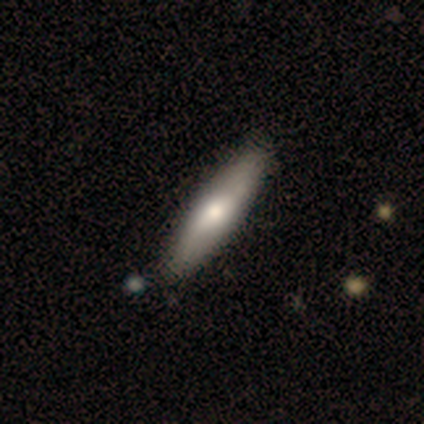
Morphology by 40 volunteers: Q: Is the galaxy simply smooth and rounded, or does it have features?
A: smooth — 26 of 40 (65%).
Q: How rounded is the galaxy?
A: cigar-shaped — 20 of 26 (77%).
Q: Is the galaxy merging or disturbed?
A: none — 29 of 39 (74%).